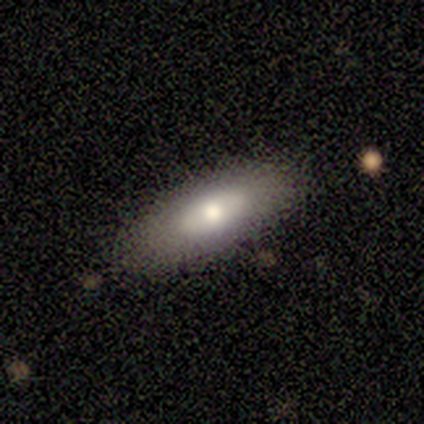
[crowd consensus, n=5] smooth_or_featured: smooth (p=0.60) [alt: featured or disk p=0.40]
how_rounded: in between (p=1.00)
merging: none (p=1.00)